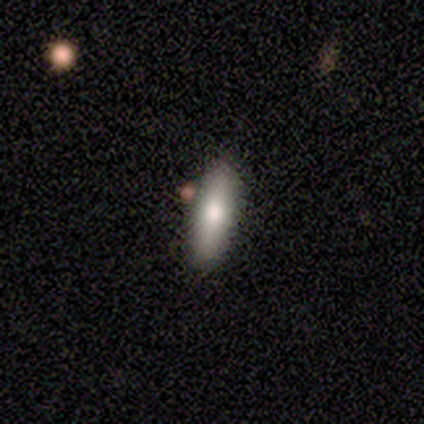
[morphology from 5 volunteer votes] smooth_or_featured: smooth (p=1.00)
how_rounded: in between (p=0.60) [alt: cigar-shaped p=0.40]
merging: none (p=0.80) [alt: minor disturbance p=0.20]